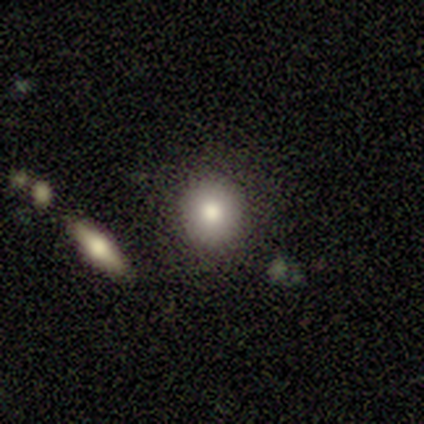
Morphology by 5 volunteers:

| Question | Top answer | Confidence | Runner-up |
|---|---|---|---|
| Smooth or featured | smooth | 80% | featured or disk (20%) |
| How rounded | round | 100% | — |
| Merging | none | 100% | — |